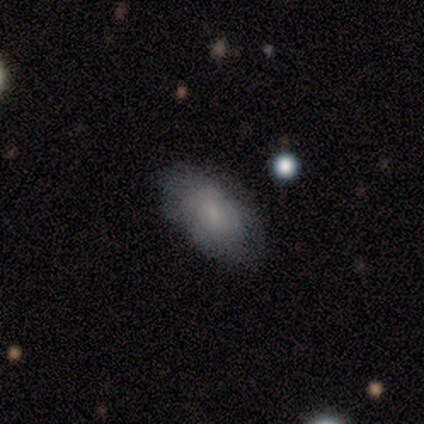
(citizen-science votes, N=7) Morphology: type=smooth (71%); roundness=in between (80%); merging=none (86%).